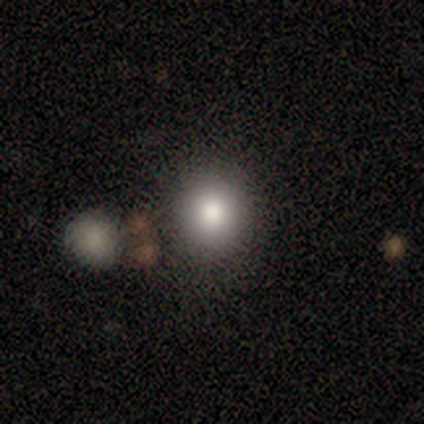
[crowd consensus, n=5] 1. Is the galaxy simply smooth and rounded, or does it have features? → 80% smooth, 20% star or artifact, 0% featured or disk.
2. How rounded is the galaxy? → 50% round (tied), 50% in between (tied), 0% cigar-shaped.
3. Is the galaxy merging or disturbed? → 50% none (tied), 50% minor disturbance (tied), 0% major disturbance, 0% merger.